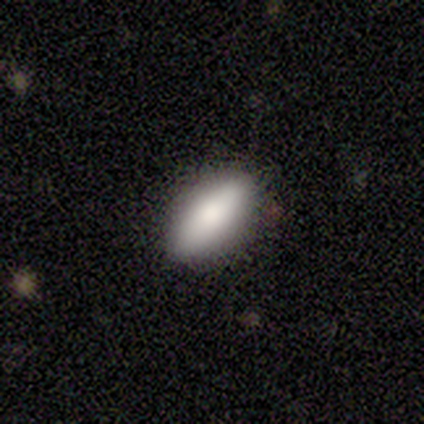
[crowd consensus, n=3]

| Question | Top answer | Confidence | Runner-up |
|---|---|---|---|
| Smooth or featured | smooth | 100% | — |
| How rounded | in between | 67% | cigar-shaped (33%) |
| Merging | none | 33% | tied: minor disturbance (33%), major disturbance (33%) |